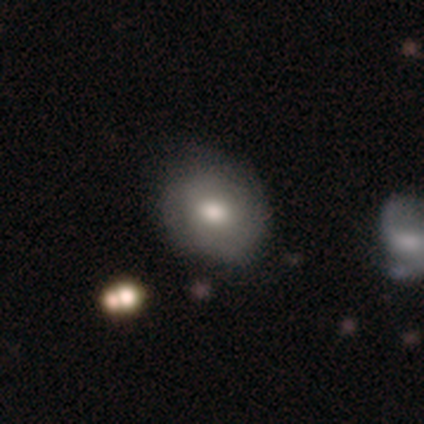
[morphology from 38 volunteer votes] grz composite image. It shows a smooth galaxy with no disk features (53%) that is round (75%). Merging: none (82%).